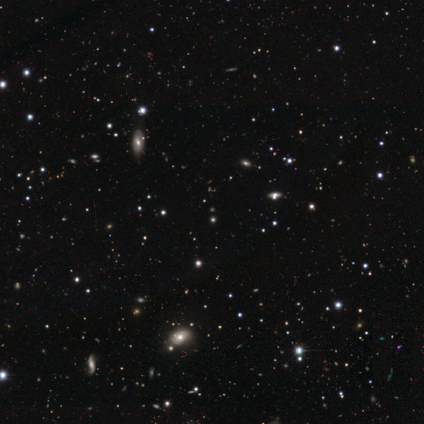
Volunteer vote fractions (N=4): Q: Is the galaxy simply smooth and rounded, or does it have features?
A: star or artifact — 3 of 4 (75%).